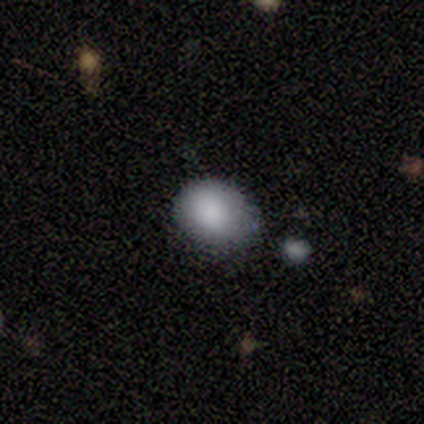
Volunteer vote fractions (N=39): Q: Smooth or featured?
A: smooth (77%); runner-up: star or artifact (15%)
Q: How rounded?
A: round (67%); runner-up: in between (33%)
Q: Merging?
A: none (55%); runner-up: minor disturbance (30%)